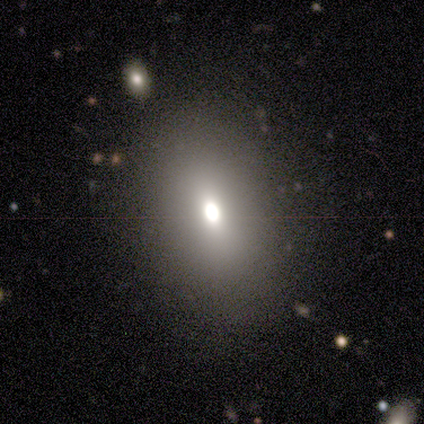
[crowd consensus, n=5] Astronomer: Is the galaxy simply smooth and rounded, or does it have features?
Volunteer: smooth — 60% (runner-up: star or artifact, 40%).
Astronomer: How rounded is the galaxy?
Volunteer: in between — 100%.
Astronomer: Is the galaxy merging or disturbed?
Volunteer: none — 100%.